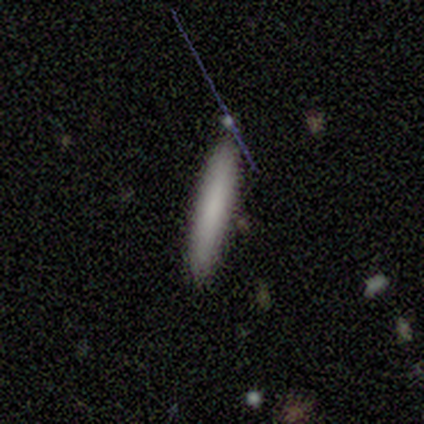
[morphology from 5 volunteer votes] smooth-or-featured: smooth: 80% | featured or disk: 20% | star or artifact: 0%
  how-rounded: cigar-shaped: 100% | round: 0% | in between: 0%
  merging: none: 80% | merger: 20% | minor disturbance: 0% | major disturbance: 0%